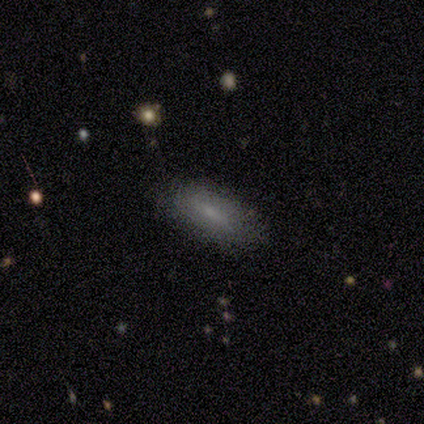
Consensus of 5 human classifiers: smooth 80%, featured or disk 20%, star or artifact 0%. Down the decision tree: how rounded — in between (50%, tied with cigar-shaped); merging — none (100%).